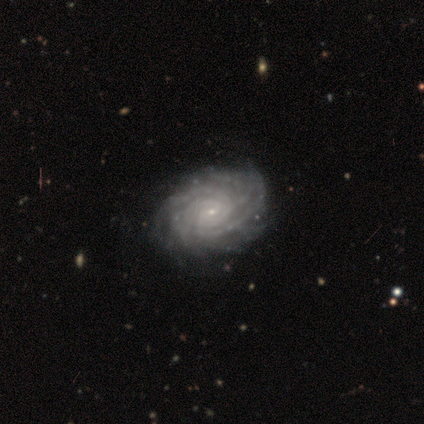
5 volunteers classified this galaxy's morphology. A featured or disk galaxy (100%) with no bar (100%), more than 4 (80%) tight (80%) spiral arms (100%) and a small central bulge (80%).

Vote fractions:
- Smooth or featured? featured or disk: 100% / smooth: 0% / star or artifact: 0%
- Edge-on disk? no: 100% / yes: 0%
- Bar? no: 100% / strong: 0% / weak: 0%
- Spiral arms? yes: 100% / no: 0%
- Spiral winding? tight: 80% / medium: 20% / loose: 0%
- Spiral arm count? more than 4: 80% / 4: 20% / 1: 0% / 2: 0% / 3: 0% / can't tell: 0%
- Bulge size? small: 80% / moderate: 20% / dominant: 0% / large: 0% / none: 0%
- Merging? none: 80% / minor disturbance: 20% / major disturbance: 0% / merger: 0%